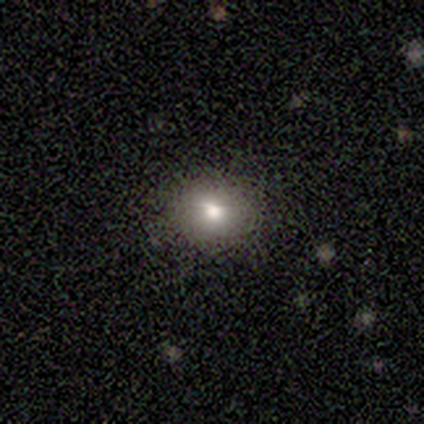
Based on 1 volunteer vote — Consensus on every question: smooth or featured — smooth (100%); how rounded — round (100%); merging — none (100%).